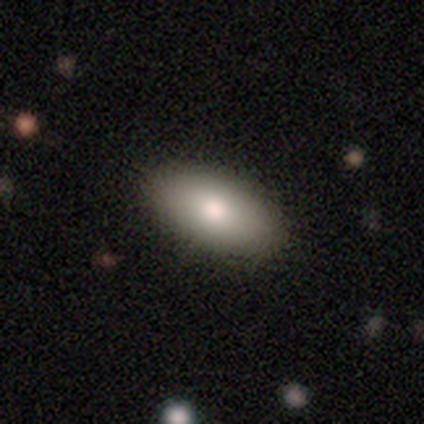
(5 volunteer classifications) A smooth galaxy with no disk features (100%) that is in between round and cigar-shaped (100%). Merging: none (100%).